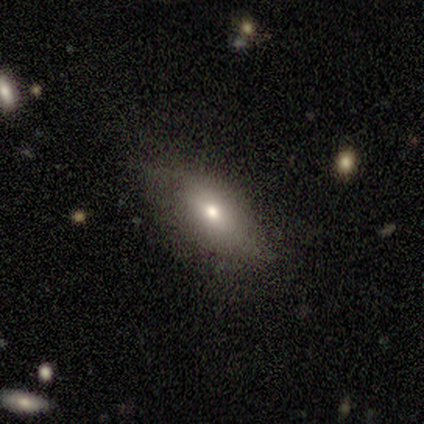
smooth-or-featured: smooth: 80% | featured or disk: 20% | star or artifact: 0%
  how-rounded: in between: 100% | round: 0% | cigar-shaped: 0%
  merging: none: 100% | minor disturbance: 0% | major disturbance: 0% | merger: 0%